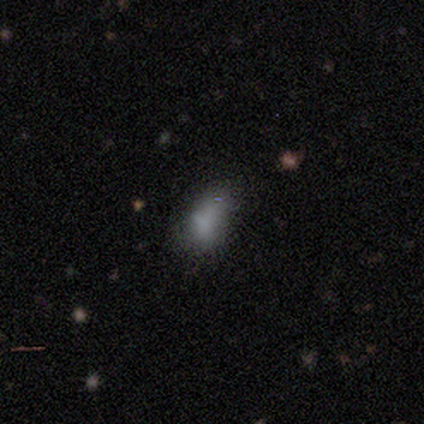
smooth 40% (tied), featured or disk 40% (tied), star or artifact 20%. Down the decision tree: how rounded — in between (100%); merging — none (50%, tied with minor disturbance).